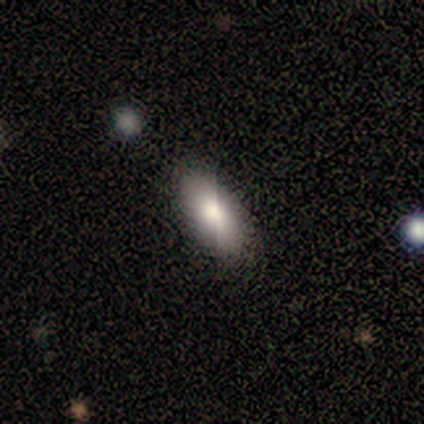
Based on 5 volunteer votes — Overall: smooth (100%). How rounded: in between (100%). Merging: none (80%).